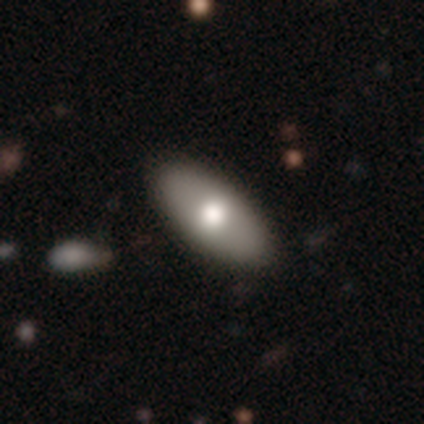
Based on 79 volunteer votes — This is likely a smooth galaxy (72%). How rounded: clearly in between (93%). Merging: possibly none (47%).